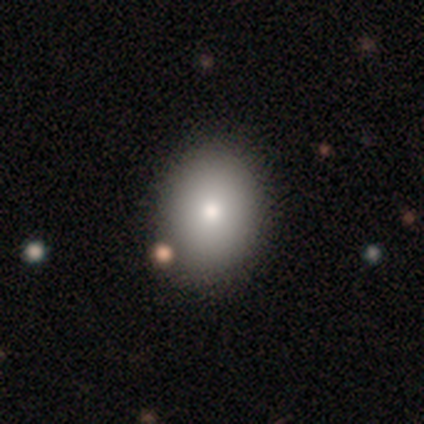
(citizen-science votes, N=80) Smooth or featured? 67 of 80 (84%) said smooth. How rounded? 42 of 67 (63%) said in between. Merging? 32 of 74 (43%) said none.